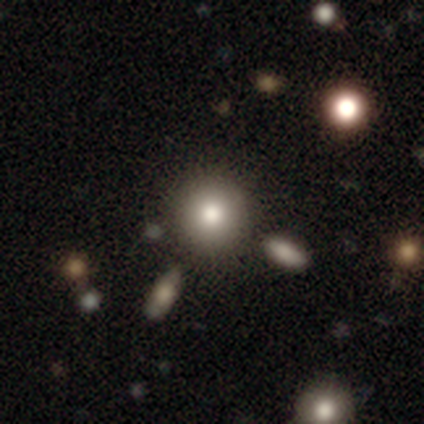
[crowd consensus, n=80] Smooth or featured? smooth (76%)
How rounded? round (100%)
Merging? none (53%)